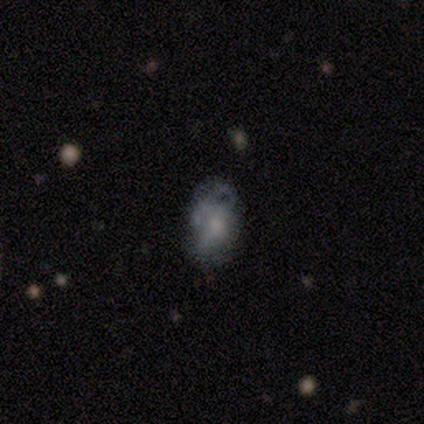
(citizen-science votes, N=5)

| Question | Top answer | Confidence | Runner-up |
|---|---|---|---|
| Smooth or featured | featured or disk | 60% | smooth (40%) |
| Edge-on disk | no | 100% | — |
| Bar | no | 100% | — |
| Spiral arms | no | 67% | yes (33%) |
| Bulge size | none | 67% | small (33%) |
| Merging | none | 40% | tied: minor disturbance (40%) |